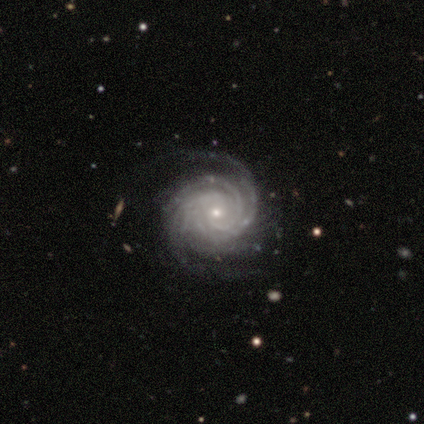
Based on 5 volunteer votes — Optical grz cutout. It shows a featured or disk galaxy (100%) with no bar (100%), 4 (40%) tight (80%) spiral arms (100%) and a small central bulge (80%). Merging: none (80%).